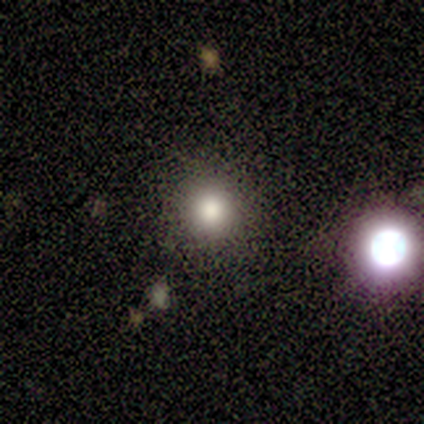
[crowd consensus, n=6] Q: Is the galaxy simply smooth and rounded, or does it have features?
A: smooth — 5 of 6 (83%).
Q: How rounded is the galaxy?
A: round — 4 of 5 (80%).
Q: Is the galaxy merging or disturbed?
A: none — 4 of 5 (80%).